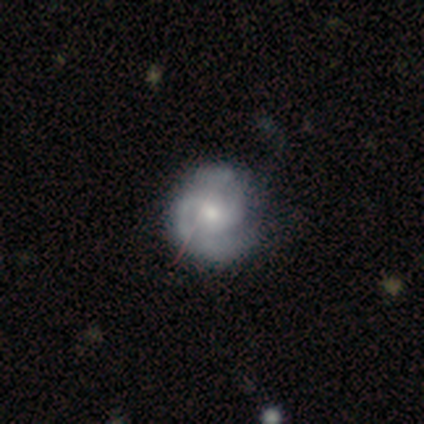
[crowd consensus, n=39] smooth_or_featured: featured or disk (p=0.90) [alt: smooth p=0.08]
disk_edge_on: no (p=1.00)
bar: no (p=0.69) [alt: weak p=0.29]
has_spiral_arms: yes (p=0.97) [alt: no p=0.03]
spiral_winding: tight (p=0.50) [alt: medium p=0.41]
spiral_arm_count: 2 (p=0.74) [alt: 3 p=0.24]
bulge_size: moderate (p=0.60) [alt: small p=0.31]
merging: none (p=0.37) [alt: minor disturbance p=0.13]